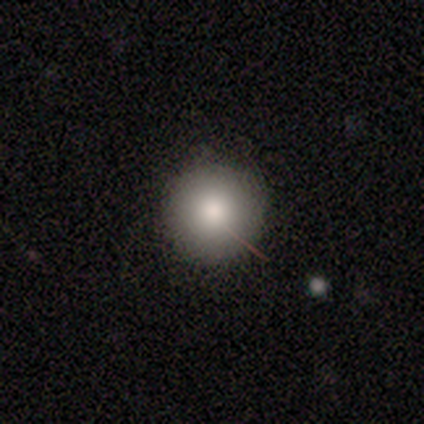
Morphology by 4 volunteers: This appears to be a smooth galaxy with no disk features (100%) that is round (100%). Merging: none (100%).